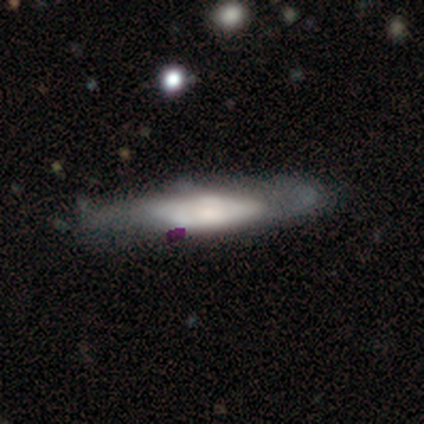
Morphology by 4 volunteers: smooth_or_featured: star or artifact (p=0.50) [alt: smooth p=0.25]